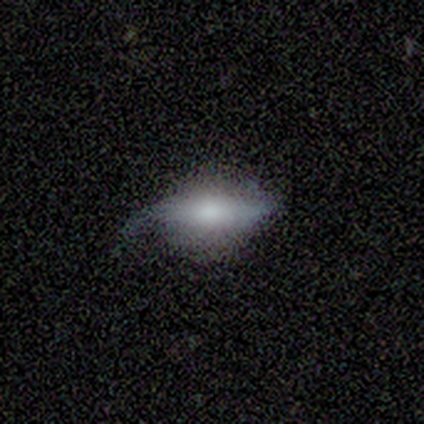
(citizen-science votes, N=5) smooth-or-featured: smooth: 100% | featured or disk: 0% | star or artifact: 0%
  how-rounded: cigar-shaped: 60% | in between: 40% | round: 0%
  merging: minor disturbance: 60% | none: 20% | major disturbance: 20% | merger: 0%